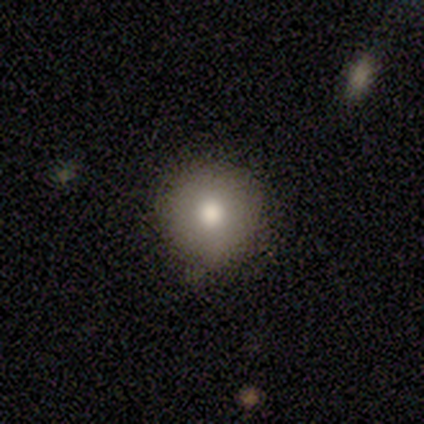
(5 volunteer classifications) This appears to be a smooth galaxy with no disk features (100%) that is round (80%). Merging: none (80%).